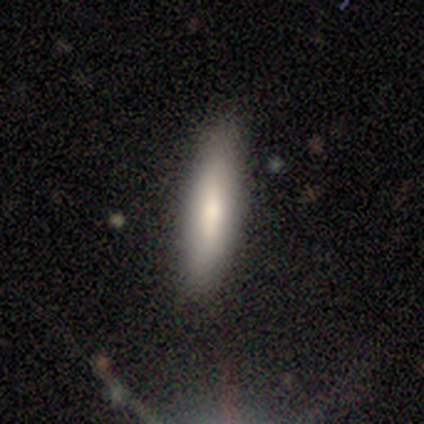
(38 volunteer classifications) This is clearly a smooth galaxy (82%). How rounded: clearly cigar-shaped (87%). Merging: clearly none (86%).